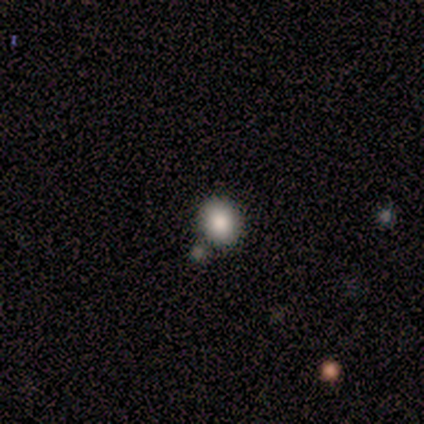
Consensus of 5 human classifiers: Smooth or featured?
  - smooth: 100% *
  - featured or disk: 0%
  - star or artifact: 0%
How rounded?
  - round: 80% *
  - in between: 20%
  - cigar-shaped: 0%
Merging?
  - none: 80% *
  - minor disturbance: 20%
  - major disturbance: 0%
  - merger: 0%